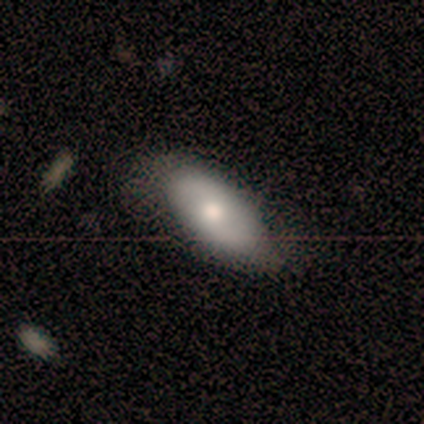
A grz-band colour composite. It shows a smooth galaxy with no disk features (100%) that is in between round and cigar-shaped (100%). Merging: none (60%).